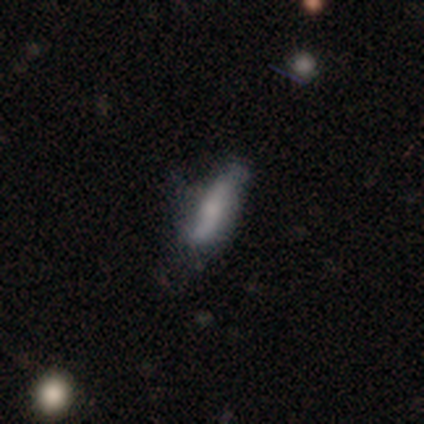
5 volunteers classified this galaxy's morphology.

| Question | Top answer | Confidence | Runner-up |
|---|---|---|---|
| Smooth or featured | featured or disk | 60% | smooth (40%) |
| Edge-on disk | yes | 100% | — |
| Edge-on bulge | none | 67% | rounded (33%) |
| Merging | none | 60% | minor disturbance (40%) |